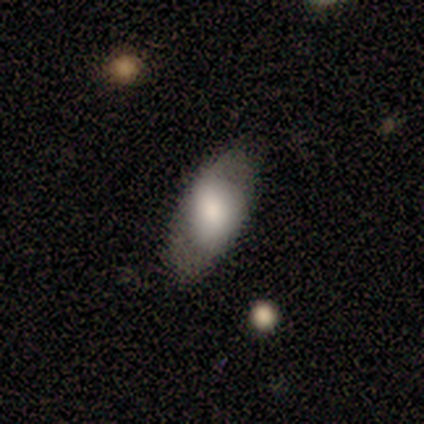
smooth 60%, featured or disk 40%, star or artifact 0%. Down the decision tree: how rounded — in between (100%); merging — none (100%).